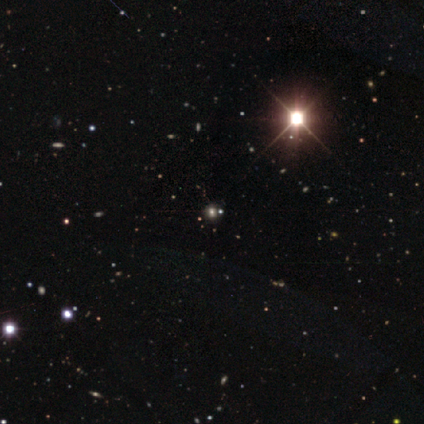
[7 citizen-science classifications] Smooth or featured: star or artifact — 57% (smooth — 29%)